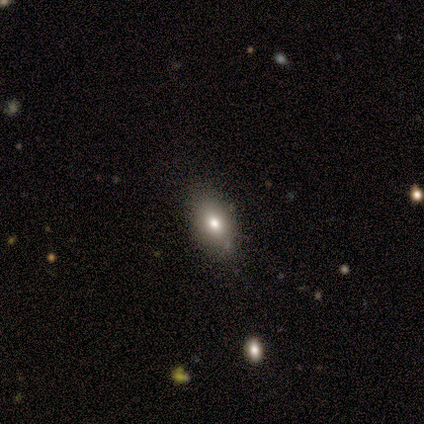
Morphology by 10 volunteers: This appears to be a smooth galaxy with no disk features (70%) that is in between round and cigar-shaped (86%). Merging: none (100%).